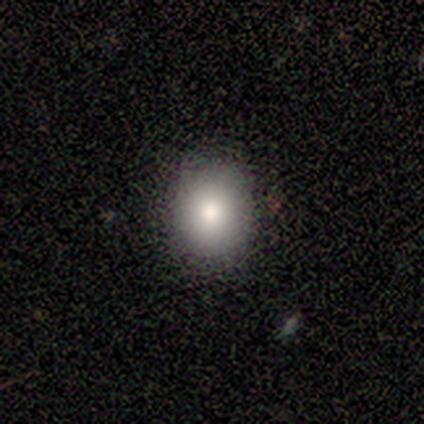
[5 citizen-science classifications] Overall: smooth (100%). How rounded: round (80%). Merging: none (100%).